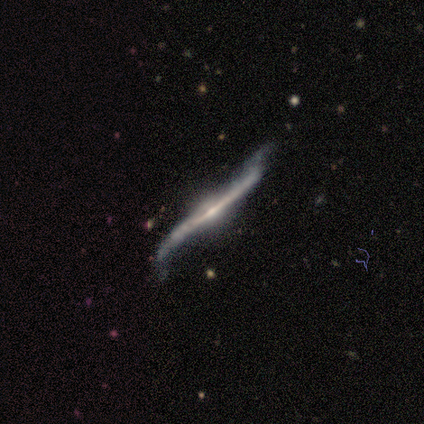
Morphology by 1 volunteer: featured or disk 100%, smooth 0%, star or artifact 0%. Down the decision tree: edge-on disk — no (100%); bar — no (100%); spiral arms — yes (100%); spiral arm count — 2 (100%); spiral winding — loose (100%); bulge size — small (100%); merging — none (100%).